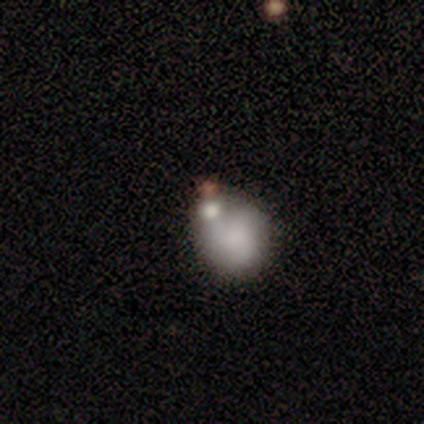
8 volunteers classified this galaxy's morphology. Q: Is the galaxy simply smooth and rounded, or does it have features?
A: smooth — 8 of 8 (100%).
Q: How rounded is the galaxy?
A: round — 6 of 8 (75%).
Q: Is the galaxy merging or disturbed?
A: merger — 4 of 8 (50%).